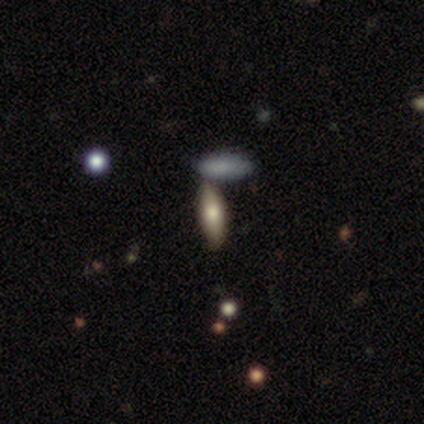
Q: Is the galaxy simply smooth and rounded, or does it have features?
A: smooth — 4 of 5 (80%).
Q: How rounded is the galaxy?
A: in between — 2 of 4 (50%, tied with cigar-shaped).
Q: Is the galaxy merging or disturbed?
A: none — 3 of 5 (60%).